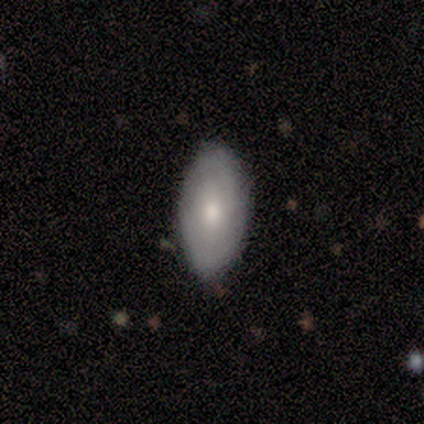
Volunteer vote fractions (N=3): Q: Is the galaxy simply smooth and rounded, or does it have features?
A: featured or disk — 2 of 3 (67%).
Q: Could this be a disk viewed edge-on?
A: no — 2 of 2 (100%).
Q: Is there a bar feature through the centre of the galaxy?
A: no — 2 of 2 (100%).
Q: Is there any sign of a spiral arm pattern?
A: yes — 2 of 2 (100%).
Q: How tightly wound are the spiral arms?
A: tight — 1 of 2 (50%, tied with medium).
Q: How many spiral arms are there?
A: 2 — 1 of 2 (50%, tied with can't tell).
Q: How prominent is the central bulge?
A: large — 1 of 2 (50%, tied with small).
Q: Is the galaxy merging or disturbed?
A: none — 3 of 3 (100%).